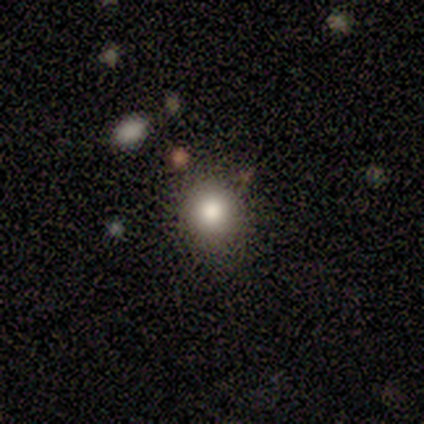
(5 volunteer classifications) smooth_or_featured: smooth (p=1.00)
how_rounded: round (p=1.00)
merging: none (p=0.80) [alt: minor disturbance p=0.20]